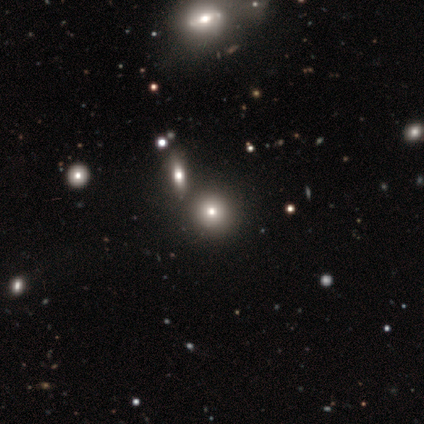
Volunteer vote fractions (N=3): Smooth or featured? smooth (67%)
How rounded? round (100%)
Merging? none (100%)